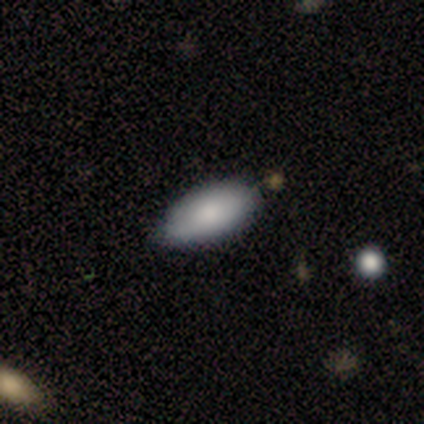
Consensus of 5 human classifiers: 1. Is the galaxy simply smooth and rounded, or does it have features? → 100% smooth, 0% featured or disk, 0% star or artifact.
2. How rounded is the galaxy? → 100% in between, 0% round, 0% cigar-shaped.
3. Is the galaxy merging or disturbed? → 60% none, 20% minor disturbance, 20% major disturbance, 0% merger.